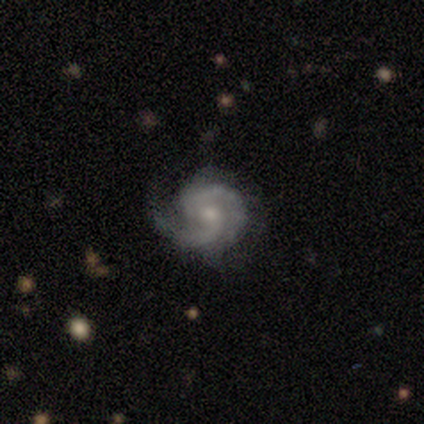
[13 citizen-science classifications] smooth_or_featured: featured or disk (p=0.85) [alt: star or artifact p=0.15]
disk_edge_on: no (p=1.00)
bar: no (p=0.64) [alt: weak p=0.36]
has_spiral_arms: yes (p=1.00)
spiral_winding: medium (p=0.55) [alt: tight p=0.36]
spiral_arm_count: 2 (p=0.73) [alt: 1 p=0.18]
bulge_size: small (p=0.73) [alt: moderate p=0.27]
merging: none (p=0.55) [alt: minor disturbance p=0.45]